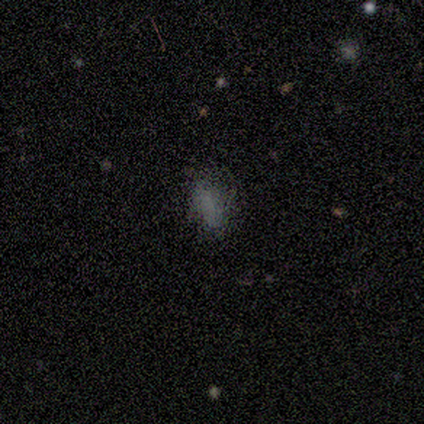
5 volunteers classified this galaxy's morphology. type=smooth (60%); roundness=in between (67%); merging=none (100%).